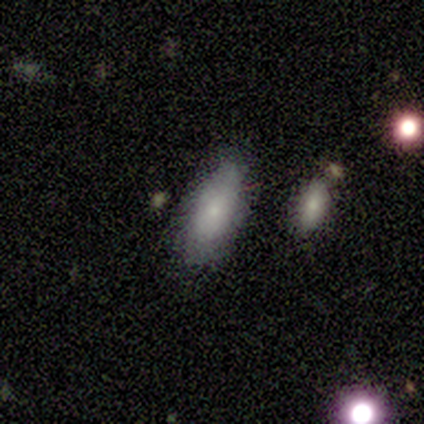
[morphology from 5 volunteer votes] Volunteers were most divided on "how rounded": in between: 80%, cigar-shaped: 20%, round: 0%. More confident: smooth or featured — smooth (100%); merging — none (100%).